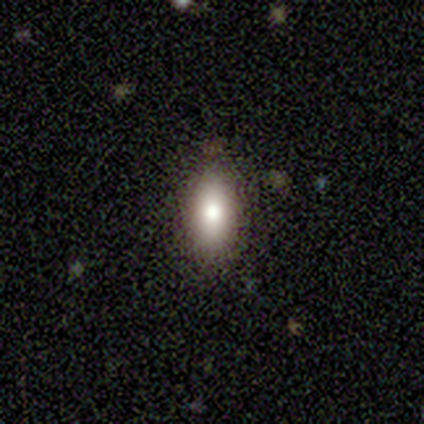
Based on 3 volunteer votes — A smooth galaxy with no disk features (67%) that is in between round and cigar-shaped (100%).

Vote fractions:
- Smooth or featured? smooth: 67% / star or artifact: 33% / featured or disk: 0%
- How rounded? in between: 100% / round: 0% / cigar-shaped: 0%
- Merging? none: 100% / minor disturbance: 0% / major disturbance: 0% / merger: 0%